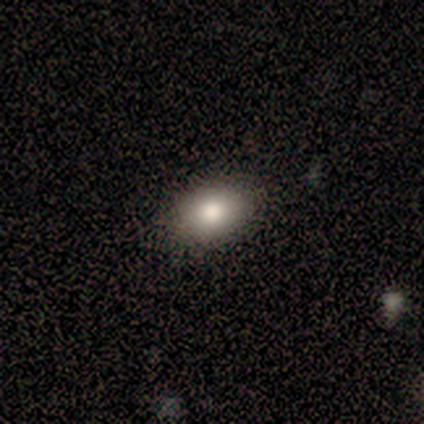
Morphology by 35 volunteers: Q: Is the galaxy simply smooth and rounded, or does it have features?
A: smooth — 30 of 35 (86%).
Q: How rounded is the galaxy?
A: in between — 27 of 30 (90%).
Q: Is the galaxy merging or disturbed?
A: none — 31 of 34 (91%).